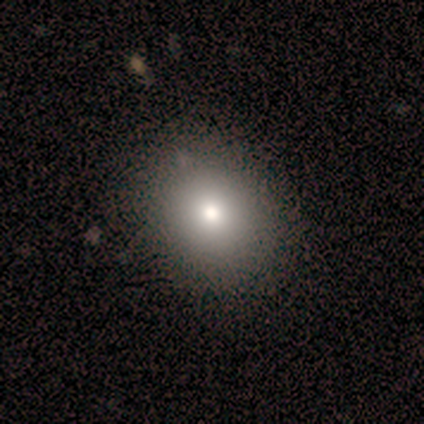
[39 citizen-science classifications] Q: Smooth or featured?
A: smooth (82%); runner-up: featured or disk (10%)
Q: How rounded?
A: round (78%); runner-up: in between (22%)
Q: Merging?
A: none (72%); runner-up: minor disturbance (11%)